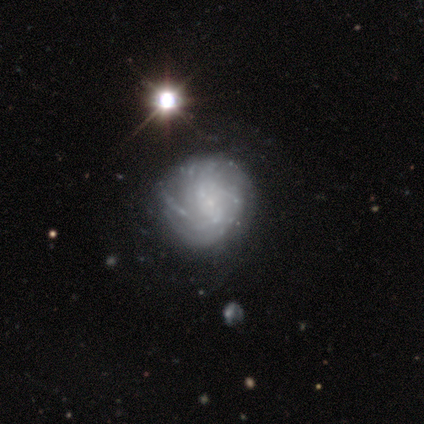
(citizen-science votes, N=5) This is likely a featured or disk galaxy (60%). It is clearly not viewed edge-on (100%). Bar: likely no (67%). Spiral arm pattern: clearly yes (100%). Spiral arm count: likely can't tell (67%). Spiral winding: likely tight (67%). Central bulge: likely small (67%). Merging: likely none (67%).